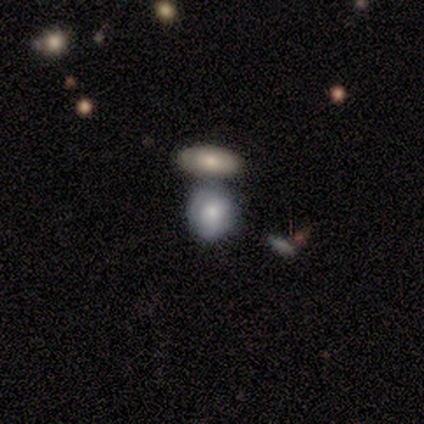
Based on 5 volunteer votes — Morphology: type=smooth (60%); roundness=in between (67%); merging=none (75%).